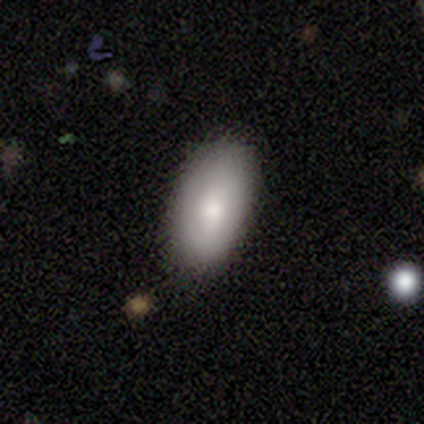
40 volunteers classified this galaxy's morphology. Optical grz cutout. It shows a smooth galaxy with no disk features (80%) that is in between round and cigar-shaped (91%). Merging: none (92%).